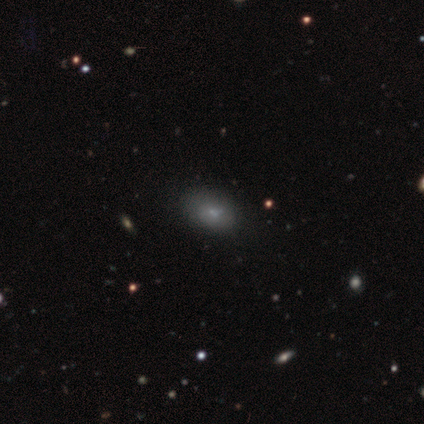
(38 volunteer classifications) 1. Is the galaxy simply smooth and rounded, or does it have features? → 71% smooth, 24% featured or disk, 5% star or artifact.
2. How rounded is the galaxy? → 89% in between, 11% round, 0% cigar-shaped.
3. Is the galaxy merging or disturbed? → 58% none, 8% merger, 3% minor disturbance, 0% major disturbance.